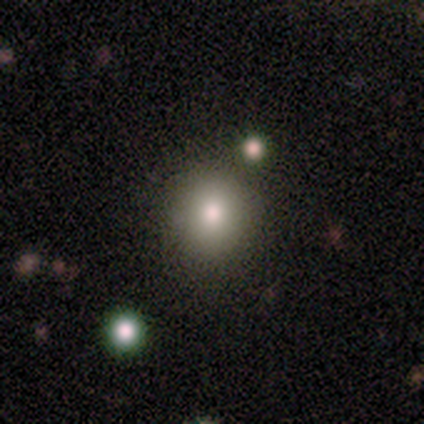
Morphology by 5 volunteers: This is clearly a smooth galaxy (80%). How rounded: possibly round (50%, tied with in between). Merging: likely none (75%).